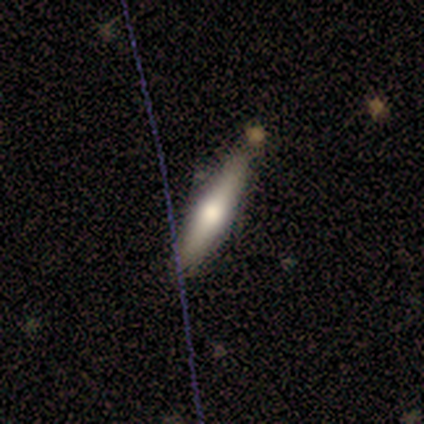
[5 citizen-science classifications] This is clearly a smooth galaxy (80%). How rounded: likely cigar-shaped (75%). Merging: clearly none (100%).